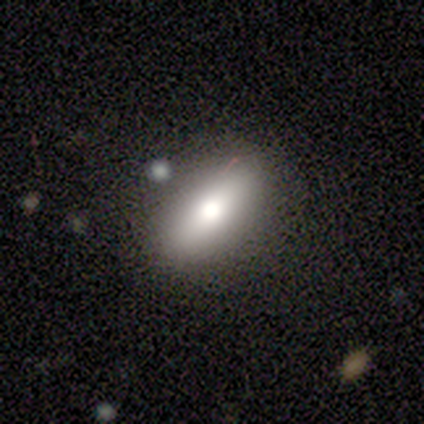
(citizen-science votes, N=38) A smooth galaxy with no disk features (68%) that is in between round and cigar-shaped (81%). Merging: none (79%).